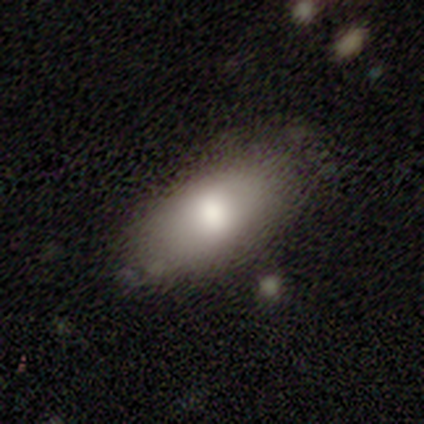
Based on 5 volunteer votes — This appears to be a smooth galaxy with no disk features (80%) that is in between round and cigar-shaped (100%). Merging: none (100%).